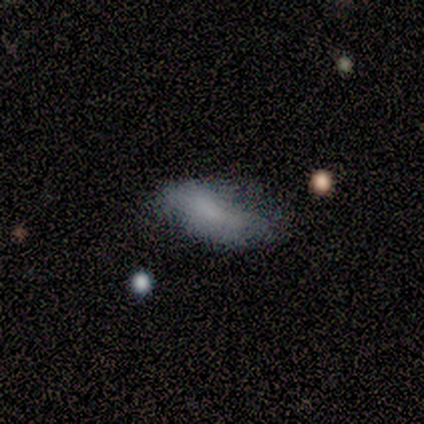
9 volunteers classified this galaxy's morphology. This is likely a smooth galaxy (78%). How rounded: clearly in between (86%). Merging: possibly minor disturbance (50%).